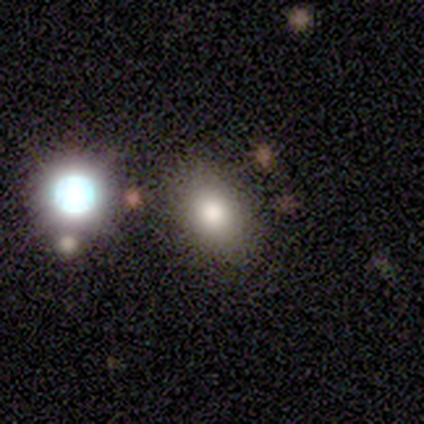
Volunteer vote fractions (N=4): Volunteers were most divided on "how rounded" (2-way tie): round: 50%, in between: 50%, cigar-shaped: 0%. More confident: smooth or featured — smooth (100%); merging — none (100%).